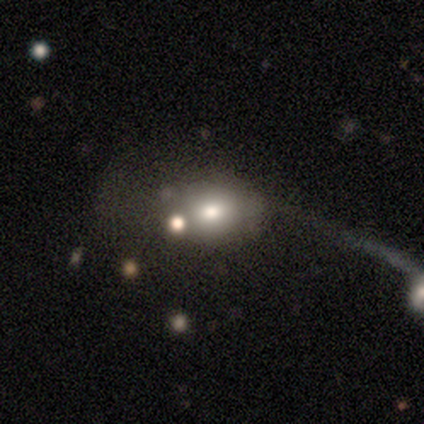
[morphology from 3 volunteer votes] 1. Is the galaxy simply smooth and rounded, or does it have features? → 100% smooth, 0% featured or disk, 0% star or artifact.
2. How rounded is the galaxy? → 67% round, 33% in between, 0% cigar-shaped.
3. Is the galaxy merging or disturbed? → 67% major disturbance, 33% merger, 0% none, 0% minor disturbance.